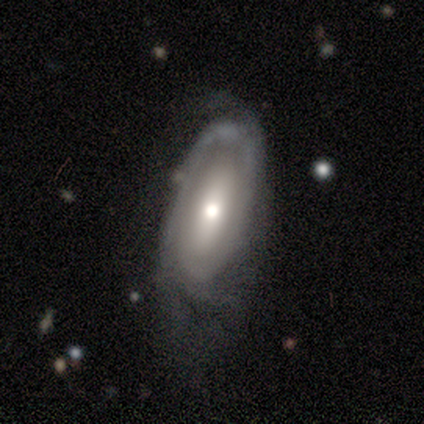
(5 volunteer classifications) featured or disk 60%, smooth 20%, star or artifact 20%. Down the decision tree: edge-on disk — no (100%); bar — no (100%); spiral arms — no (67%); bulge size — moderate (100%); merging — none (100%).